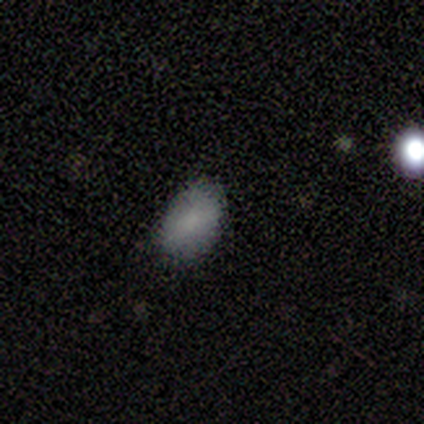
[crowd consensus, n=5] Overall: smooth (100%). How rounded: in between (100%). Merging: none (100%).